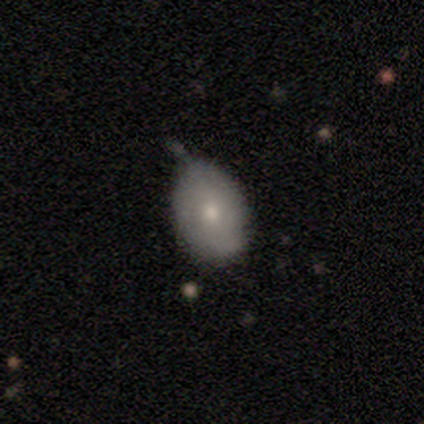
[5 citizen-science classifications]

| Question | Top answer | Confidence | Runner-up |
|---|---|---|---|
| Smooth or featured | featured or disk | 60% | smooth (40%) |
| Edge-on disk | no | 100% | — |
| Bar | no | 67% | weak (33%) |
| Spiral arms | no | 67% | yes (33%) |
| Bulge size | small | 67% | moderate (33%) |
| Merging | none | 60% | minor disturbance (40%) |